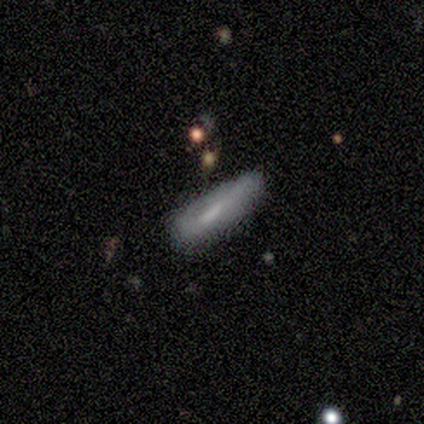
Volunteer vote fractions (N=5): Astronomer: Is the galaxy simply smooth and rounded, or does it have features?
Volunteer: smooth — 80%.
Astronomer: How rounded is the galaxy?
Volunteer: cigar-shaped — 75%.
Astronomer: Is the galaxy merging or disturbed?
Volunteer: minor disturbance — 50%.